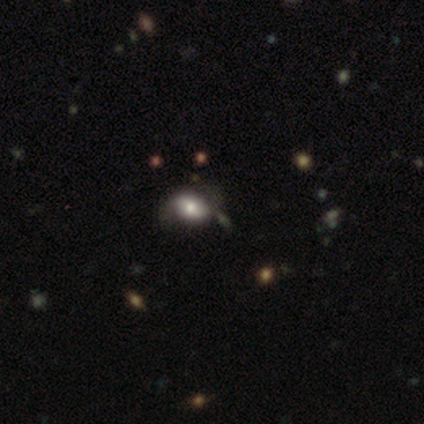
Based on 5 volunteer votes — Q: Smooth or featured?
A: smooth (60%); runner-up: featured or disk (20%)
Q: How rounded?
A: in between (100%)
Q: Merging?
A: none (50%); tied with: minor disturbance (50%)